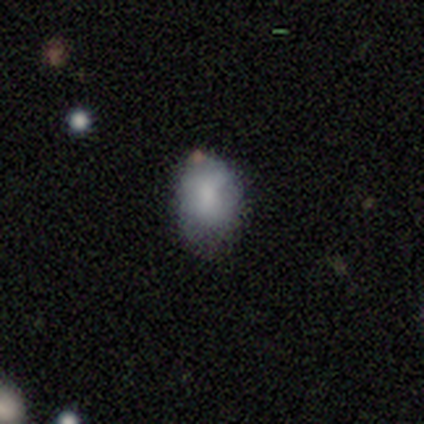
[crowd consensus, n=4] Smooth or featured? 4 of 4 (100%) said smooth. How rounded? 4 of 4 (100%) said in between. Merging? 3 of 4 (75%) said none.